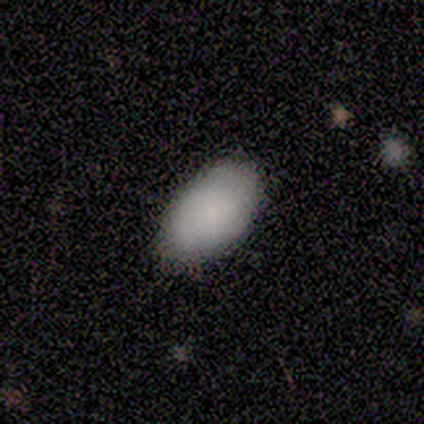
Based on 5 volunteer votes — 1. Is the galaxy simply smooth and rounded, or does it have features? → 60% smooth, 40% featured or disk, 0% star or artifact.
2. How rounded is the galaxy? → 100% in between, 0% round, 0% cigar-shaped.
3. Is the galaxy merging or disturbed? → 80% none, 20% minor disturbance, 0% major disturbance, 0% merger.